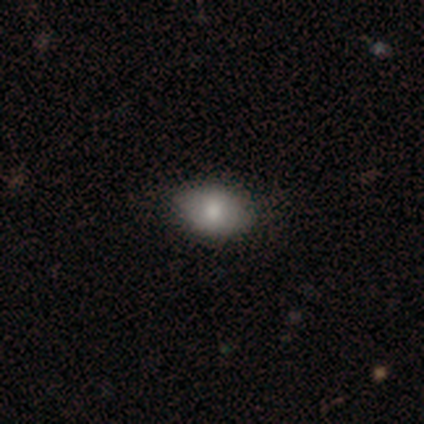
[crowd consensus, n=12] smooth-or-featured: smooth: 75% | featured or disk: 17% | star or artifact: 8%
  how-rounded: in between: 78% | round: 22% | cigar-shaped: 0%
  merging: none: 91% | minor disturbance: 9% | major disturbance: 0% | merger: 0%